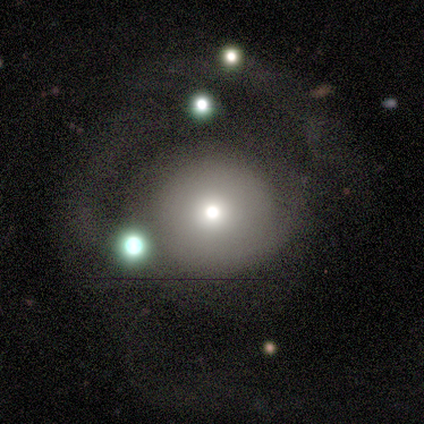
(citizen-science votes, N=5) Smooth or featured? 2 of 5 (40%, tied with star or artifact) said smooth. How rounded? 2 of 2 (100%) said round. Merging? 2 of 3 (67%) said none.